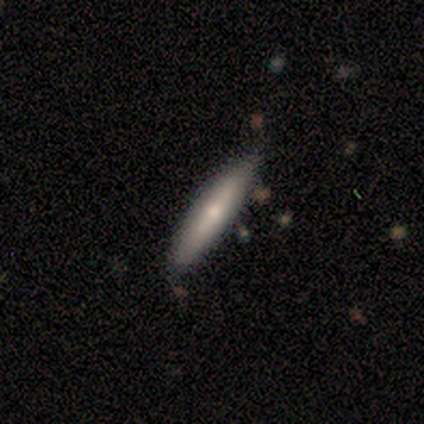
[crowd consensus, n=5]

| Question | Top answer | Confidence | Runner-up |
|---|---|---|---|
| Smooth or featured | smooth | 80% | featured or disk (20%) |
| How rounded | cigar-shaped | 100% | — |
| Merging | none | 60% | minor disturbance (20%) |